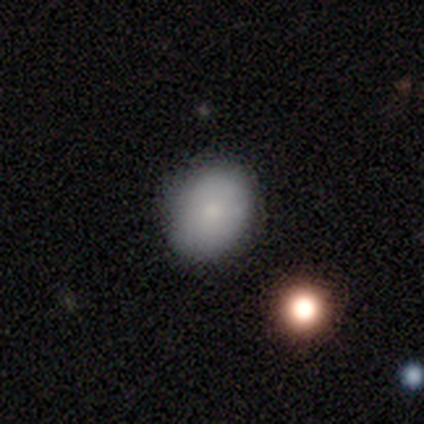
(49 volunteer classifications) Volunteers were most divided on "how rounded": round: 62%, in between: 38%, cigar-shaped: 0%. More confident: merging — none (81%); smooth or featured — smooth (80%).